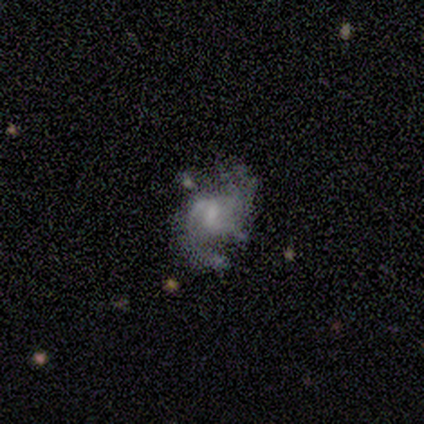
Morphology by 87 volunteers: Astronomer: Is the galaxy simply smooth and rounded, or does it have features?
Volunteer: featured or disk — 85%.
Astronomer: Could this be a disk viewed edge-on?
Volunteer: no — 96%.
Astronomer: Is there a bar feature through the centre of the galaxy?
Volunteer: weak — 61%.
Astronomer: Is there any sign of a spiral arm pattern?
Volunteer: yes — 89%.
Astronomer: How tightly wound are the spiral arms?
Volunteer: medium — 52%.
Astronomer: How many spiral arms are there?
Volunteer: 2 — 56%.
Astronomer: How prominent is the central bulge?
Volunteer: small — 35% (runner-up: none, 32%).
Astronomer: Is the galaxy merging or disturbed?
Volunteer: none — 60%.